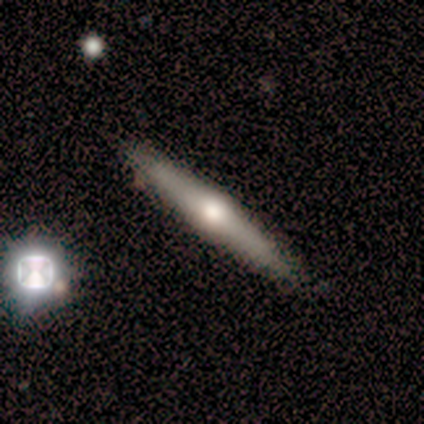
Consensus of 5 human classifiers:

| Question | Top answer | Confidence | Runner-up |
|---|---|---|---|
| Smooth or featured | featured or disk | 60% | smooth (40%) |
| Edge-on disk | yes | 100% | — |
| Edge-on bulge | rounded | 67% | none (33%) |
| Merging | none | 80% | merger (20%) |